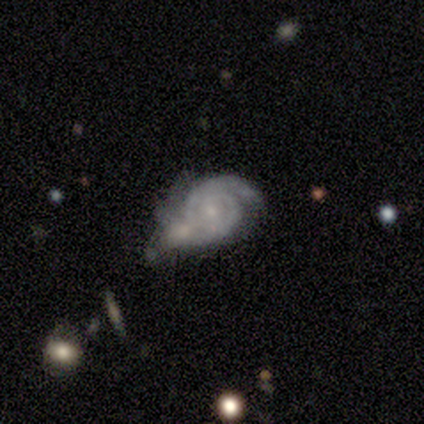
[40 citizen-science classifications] smooth_or_featured: featured or disk (p=0.95) [alt: smooth p=0.05]
disk_edge_on: no (p=0.97) [alt: yes p=0.03]
bar: no (p=0.68) [alt: weak p=0.27]
has_spiral_arms: yes (p=1.00)
spiral_winding: tight (p=0.73) [alt: medium p=0.27]
spiral_arm_count: 2 (p=0.70) [alt: 3 p=0.11]
bulge_size: small (p=0.76) [alt: moderate p=0.22]
merging: minor disturbance (p=0.35) [alt: none p=0.25]